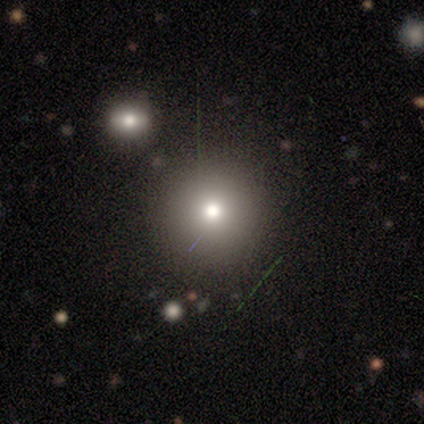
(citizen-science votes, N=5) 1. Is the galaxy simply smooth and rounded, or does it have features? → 40% smooth (tied), 40% featured or disk (tied), 20% star or artifact.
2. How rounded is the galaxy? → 100% round, 0% in between, 0% cigar-shaped.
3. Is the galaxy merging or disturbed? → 100% none, 0% minor disturbance, 0% major disturbance, 0% merger.